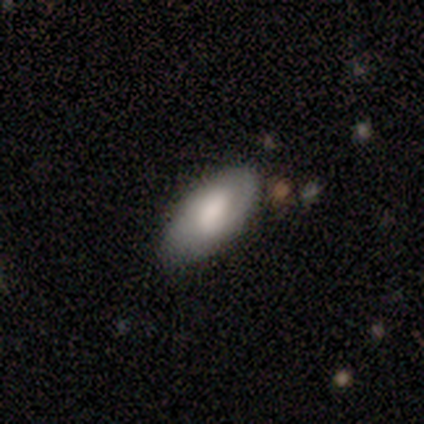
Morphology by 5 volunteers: type=smooth (60%); roundness=in between (100%); merging=none (80%).